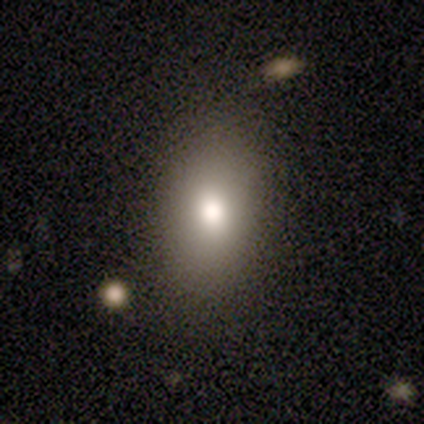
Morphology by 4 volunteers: Overall: smooth (75%). How rounded: in between (100%). Merging: none (100%).